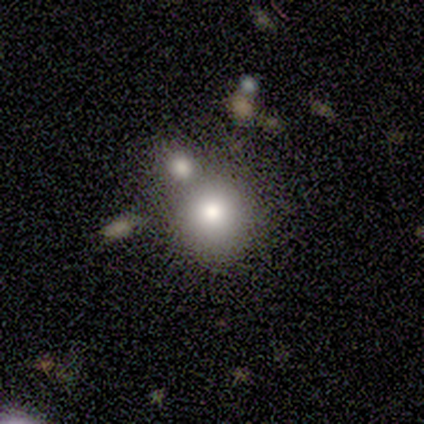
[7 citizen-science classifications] smooth_or_featured: smooth (p=0.71) [alt: featured or disk p=0.29]
how_rounded: round (p=1.00)
merging: none (p=0.57) [alt: merger p=0.29]